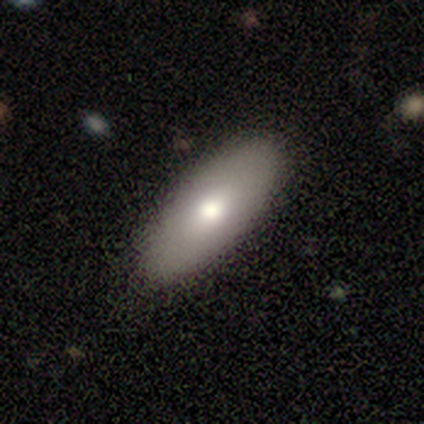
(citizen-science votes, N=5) Volunteers were most divided on "smooth or featured": smooth: 60%, featured or disk: 20%, star or artifact: 20%. More confident: how rounded — in between (100%); merging — none (100%).